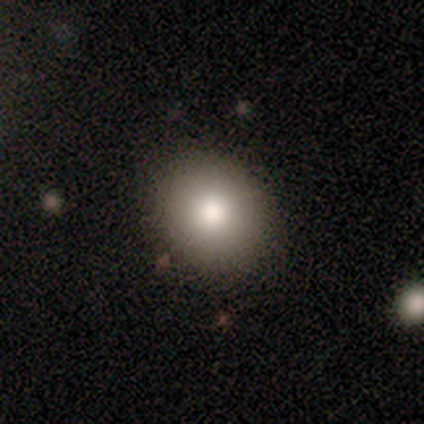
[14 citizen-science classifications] Smooth or featured: smooth — 86% (featured or disk — 14%)
How rounded: round — 75% (in between — 25%)
Merging: none — 86% (major disturbance — 7%)